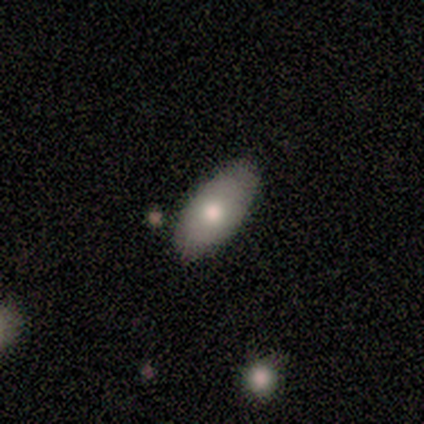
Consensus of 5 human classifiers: Smooth or featured: smooth — 60% (featured or disk — 40%)
How rounded: in between — 100%
Merging: none — 60% (minor disturbance — 20%)